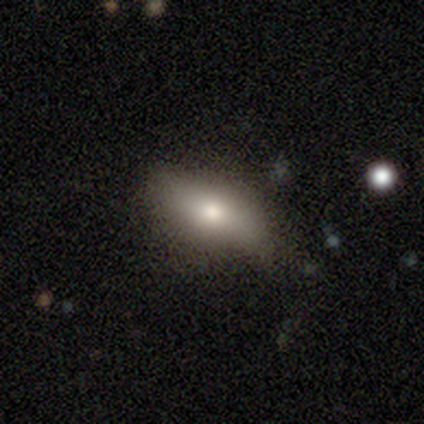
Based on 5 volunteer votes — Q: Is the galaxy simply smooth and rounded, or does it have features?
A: smooth — 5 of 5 (100%).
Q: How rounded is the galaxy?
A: in between — 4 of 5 (80%).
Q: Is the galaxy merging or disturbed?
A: none — 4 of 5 (80%).